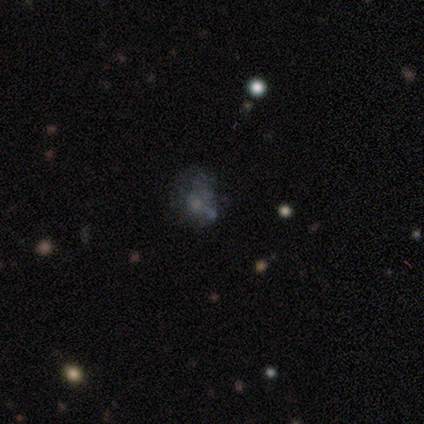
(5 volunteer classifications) This appears to be a featured or disk galaxy (40%, tied with star or artifact) with no bar (100%), no spiral arms (100%) and a small central bulge (100%). Merging: none (67%).